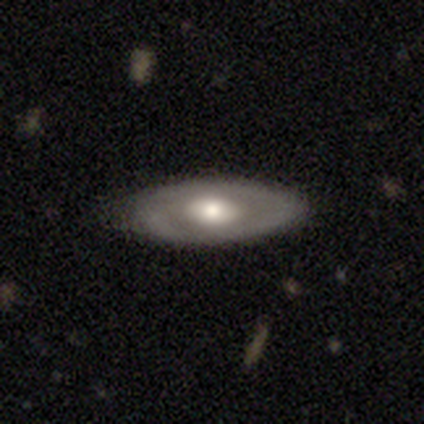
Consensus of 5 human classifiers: Smooth or featured: featured or disk — 100%
Edge-on disk: no — 60% (yes — 40%)
Bar: no — 67% (weak — 33%)
Spiral arms: no — 67% (yes — 33%)
Bulge size: large — 67% (small — 33%)
Merging: none — 80% (major disturbance — 20%)